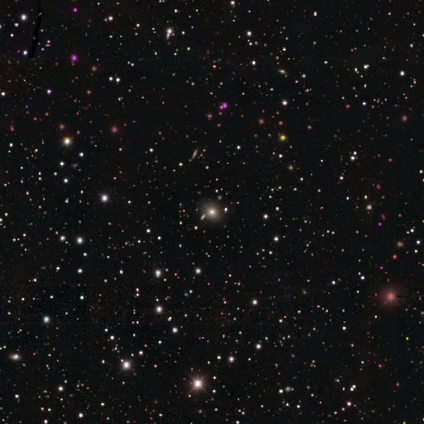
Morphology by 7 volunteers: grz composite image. It shows a star or artifact, not a galaxy (71%).